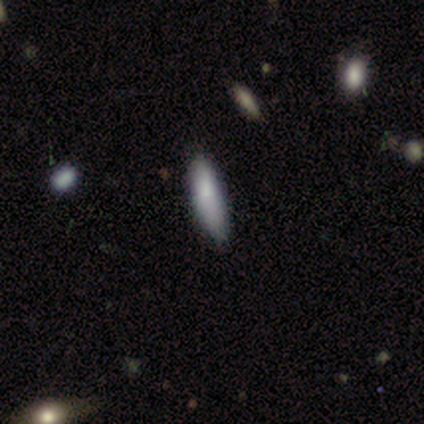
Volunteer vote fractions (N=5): Smooth or featured: smooth — 60% (featured or disk — 20%)
How rounded: cigar-shaped — 67% (in between — 33%)
Merging: none — 50% (tied with minor disturbance — 50%)